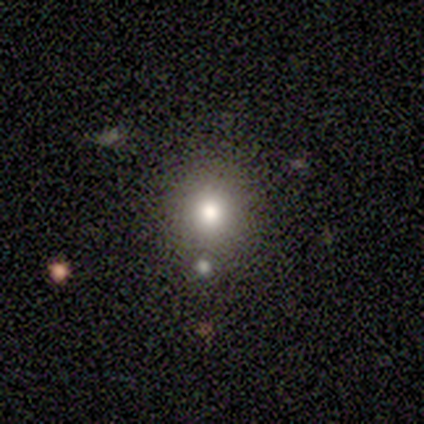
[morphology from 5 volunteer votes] This appears to be a smooth galaxy with no disk features (100%) that is round (100%). Merging: none (80%).